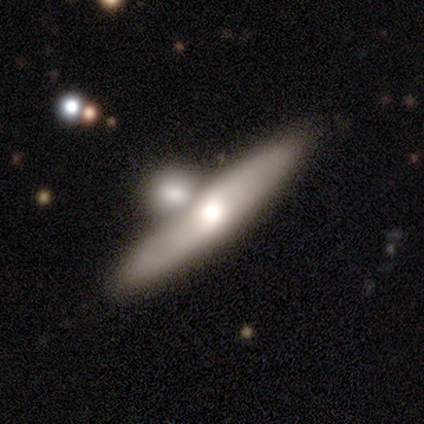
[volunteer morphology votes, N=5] Smooth or featured? featured or disk (80%)
Edge-on disk? yes (75%)
Edge-on bulge? rounded (67%)
Merging? merger (60%)